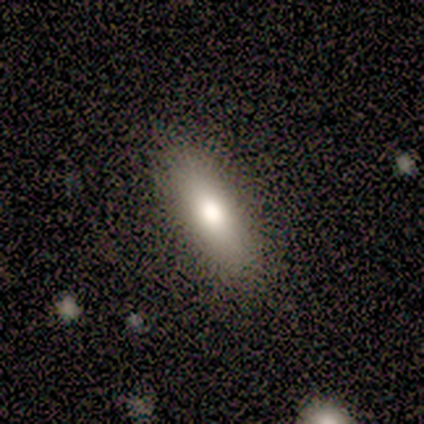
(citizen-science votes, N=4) A smooth galaxy with no disk features (100%) that is in between round and cigar-shaped (75%).

Vote fractions:
- Smooth or featured? smooth: 100% / featured or disk: 0% / star or artifact: 0%
- How rounded? in between: 75% / cigar-shaped: 25% / round: 0%
- Merging? none: 75% / minor disturbance: 25% / major disturbance: 0% / merger: 0%